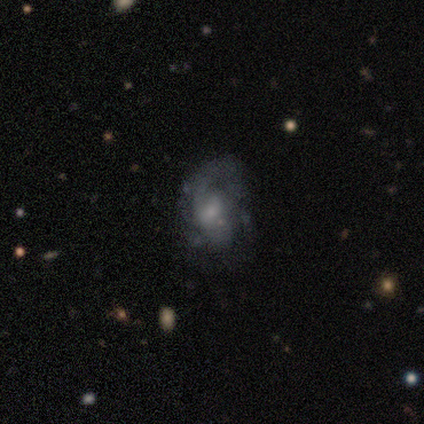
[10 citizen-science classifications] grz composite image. It shows a featured or disk galaxy (70%) with a weak bar (57%), 2 (40%) medium (80%) spiral arms (71%) and no central bulge (43%). Merging: none (44%).